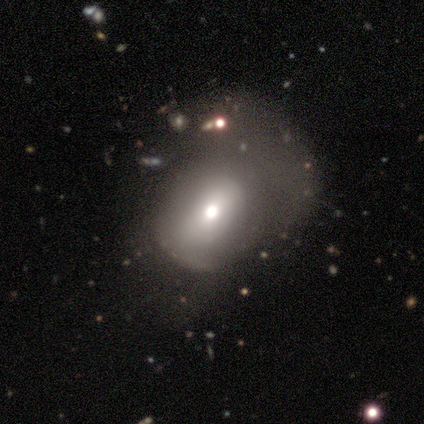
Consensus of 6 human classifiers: A featured or disk galaxy (67%) with no bar (75%), no spiral arms (100%) and a moderate central bulge (75%).

Vote fractions:
- Smooth or featured? featured or disk: 67% / smooth: 33% / star or artifact: 0%
- Edge-on disk? no: 100% / yes: 0%
- Bar? no: 75% / strong: 25% / weak: 0%
- Spiral arms? no: 100% / yes: 0%
- Bulge size? moderate: 75% / large: 25% / dominant: 0% / small: 0% / none: 0%
- Merging? major disturbance: 50% / none: 33% / minor disturbance: 17% / merger: 0%